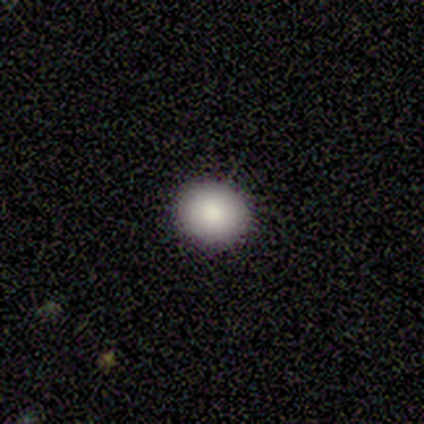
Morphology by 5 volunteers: A smooth galaxy with no disk features (80%) that is round (75%). Merging: none (80%).